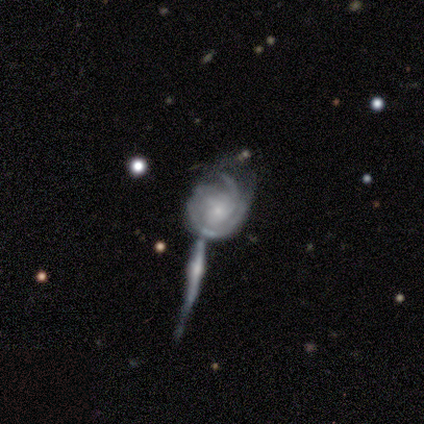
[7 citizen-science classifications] Volunteers were most divided on "spiral arm count" (2-way tie): 2: 40%, can't tell: 40%, 3: 20%, 1: 0%, 4: 0%, more than 4: 0%; "merging" (3-way tie): none: 33%, minor disturbance: 33%, merger: 33%, major disturbance: 0%. More confident: edge-on disk — no (100%); bar — no (100%); spiral arms — yes (100%); spiral winding — tight (80%); smooth or featured — featured or disk (71%); bulge size — small (60%).